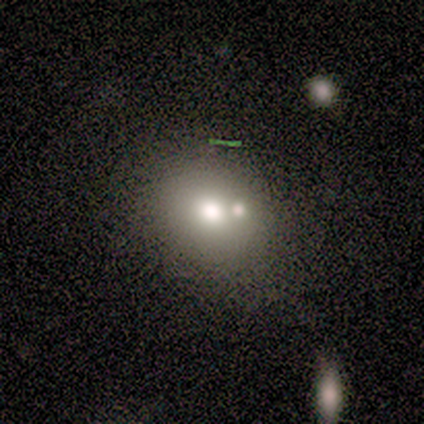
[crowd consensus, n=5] This appears to be a smooth galaxy with no disk features (100%) that is round (80%). Merging: none (100%).